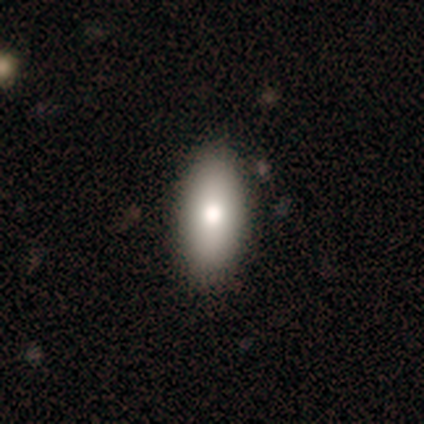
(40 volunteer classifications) Smooth or featured?
  - smooth: 78% *
  - featured or disk: 20%
  - star or artifact: 2%
How rounded?
  - in between: 84% *
  - cigar-shaped: 13%
  - round: 3%
Merging?
  - none: 72% *
  - minor disturbance: 5%
  - major disturbance: 3%
  - merger: 0%